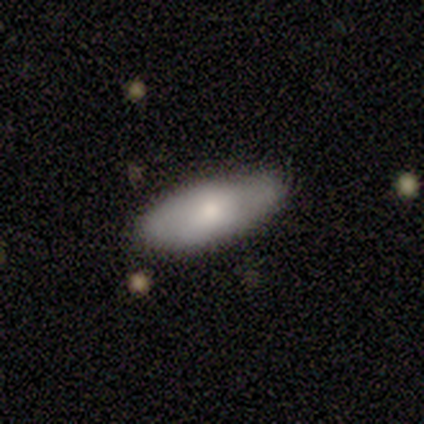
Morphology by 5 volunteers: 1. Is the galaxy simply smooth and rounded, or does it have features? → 40% smooth (tied), 40% featured or disk (tied), 20% star or artifact.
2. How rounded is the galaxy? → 100% in between, 0% round, 0% cigar-shaped.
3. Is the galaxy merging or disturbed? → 75% none, 25% minor disturbance, 0% major disturbance, 0% merger.